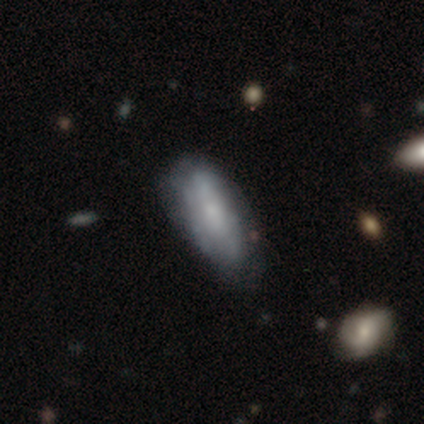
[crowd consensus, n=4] Smooth or featured? 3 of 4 (75%) said smooth. How rounded? 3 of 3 (100%) said in between. Merging? 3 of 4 (75%) said minor disturbance.